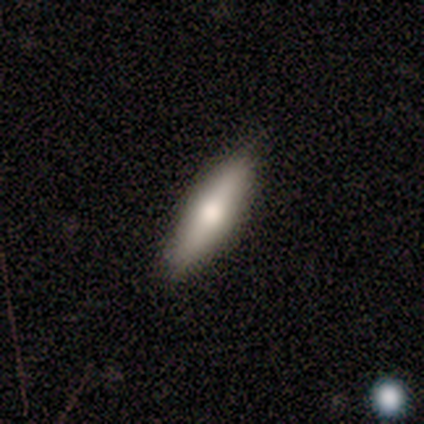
smooth-or-featured: smooth: 60% | featured or disk: 20% | star or artifact: 20%
  how-rounded: cigar-shaped: 100% | round: 0% | in between: 0%
  merging: none: 75% | minor disturbance: 25% | major disturbance: 0% | merger: 0%